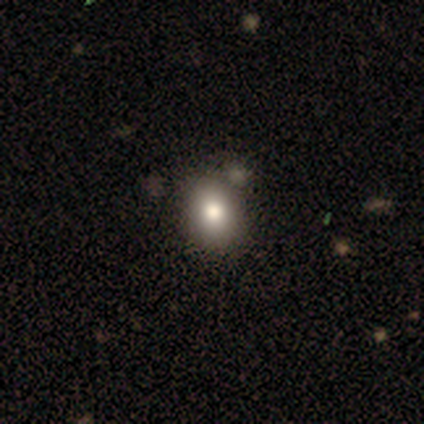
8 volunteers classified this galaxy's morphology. Smooth or featured?
  - smooth: 75% *
  - featured or disk: 25%
  - star or artifact: 0%
How rounded?
  - in between: 83% *
  - round: 17%
  - cigar-shaped: 0%
Merging?
  - none: 88% *
  - minor disturbance: 12%
  - major disturbance: 0%
  - merger: 0%